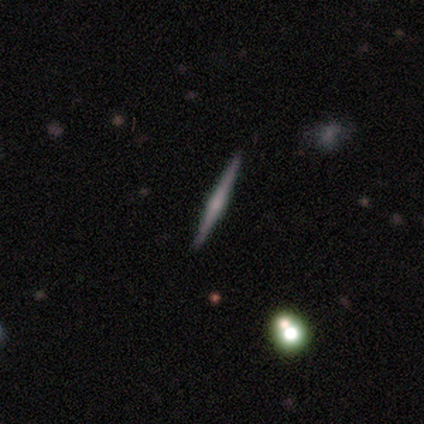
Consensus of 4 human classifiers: Smooth or featured? smooth (75%)
How rounded? cigar-shaped (100%)
Merging? none (75%)